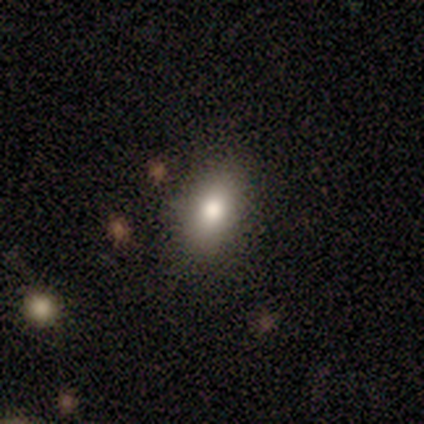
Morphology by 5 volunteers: This is clearly a smooth galaxy (80%). How rounded: clearly in between (100%). Merging: likely none (75%).